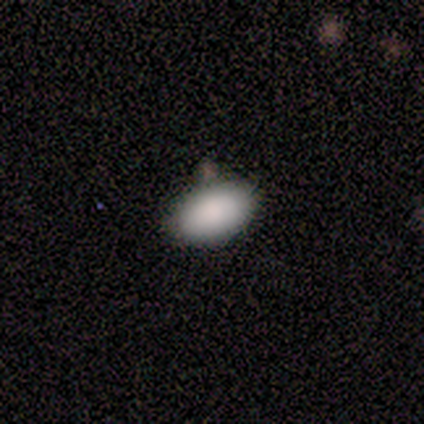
Smooth or featured?
  - smooth: 100% *
  - featured or disk: 0%
  - star or artifact: 0%
How rounded?
  - in between: 100% *
  - round: 0%
  - cigar-shaped: 0%
Merging?
  - none: 100% *
  - minor disturbance: 0%
  - major disturbance: 0%
  - merger: 0%